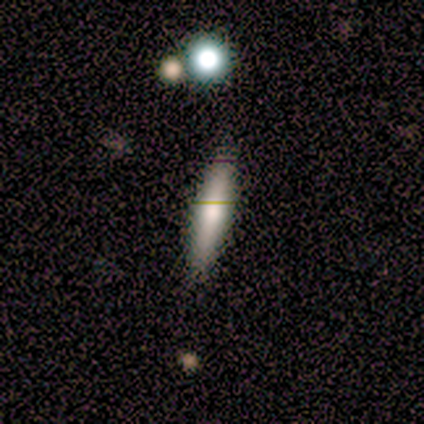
Smooth or featured: featured or disk — 60% (smooth — 40%)
Edge-on disk: yes — 100%
Edge-on bulge: rounded — 67% (boxy — 33%)
Merging: none — 100%